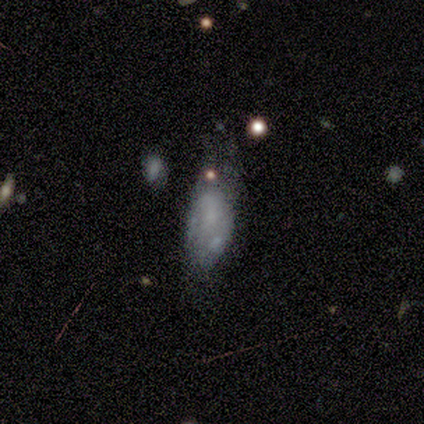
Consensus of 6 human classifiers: A smooth galaxy with no disk features (67%) that is in between round and cigar-shaped (100%).

Vote fractions:
- Smooth or featured? smooth: 67% / featured or disk: 17% / star or artifact: 17%
- How rounded? in between: 100% / round: 0% / cigar-shaped: 0%
- Merging? none: 40% (tied) / merger: 40% (tied) / major disturbance: 20% / minor disturbance: 0%